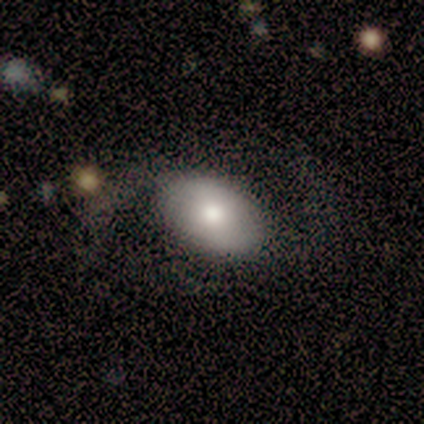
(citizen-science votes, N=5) Smooth or featured? smooth (80%)
How rounded? in between (100%)
Merging? none (80%)